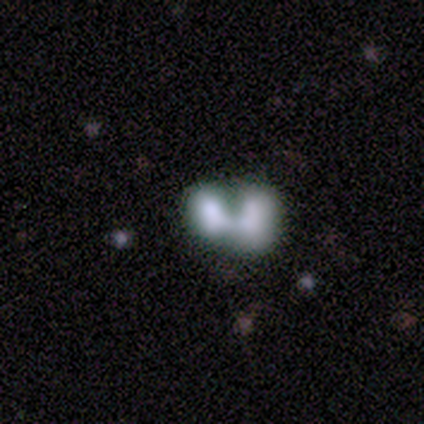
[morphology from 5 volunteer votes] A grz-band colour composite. It shows a featured or disk galaxy (60%) with no bar (100%), no spiral arms (100%) and no central bulge (67%). Merging: merger (80%).